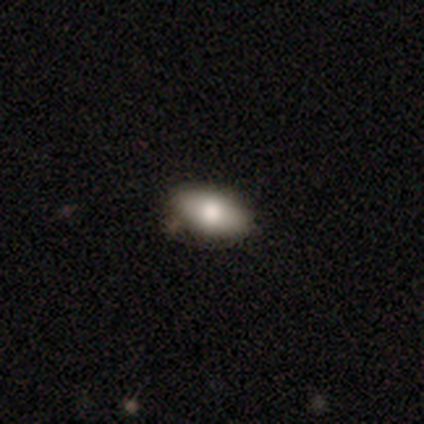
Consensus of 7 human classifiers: A smooth galaxy with no disk features (71%) that is in between round and cigar-shaped (100%).

Vote fractions:
- Smooth or featured? smooth: 71% / featured or disk: 14% / star or artifact: 14%
- How rounded? in between: 100% / round: 0% / cigar-shaped: 0%
- Merging? none: 83% / major disturbance: 17% / minor disturbance: 0% / merger: 0%